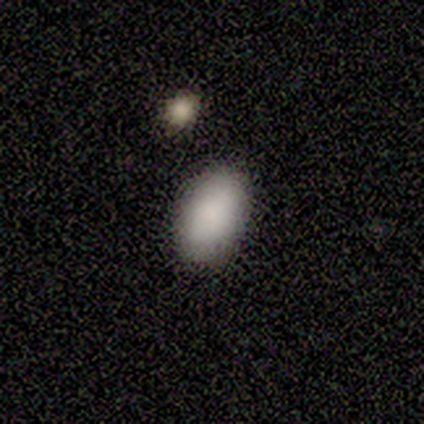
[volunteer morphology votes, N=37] type=smooth (89%); roundness=in between (94%); merging=none (88%).